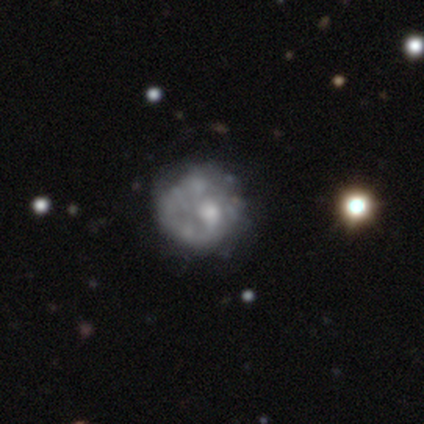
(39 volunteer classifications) Smooth or featured: smooth — 46% (tied with featured or disk — 46%)
How rounded: round — 94% (in between — 6%)
Merging: none — 61% (minor disturbance — 22%)